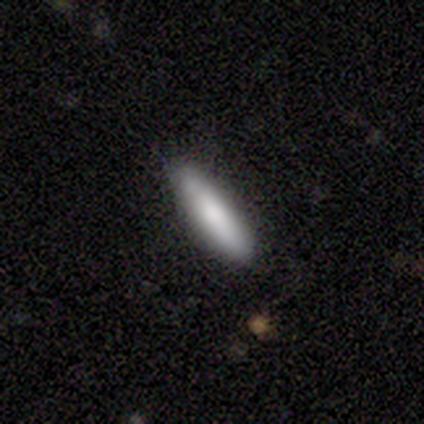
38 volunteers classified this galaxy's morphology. This appears to be a smooth galaxy with no disk features (84%) that is cigar-shaped (72%). Merging: none (89%).